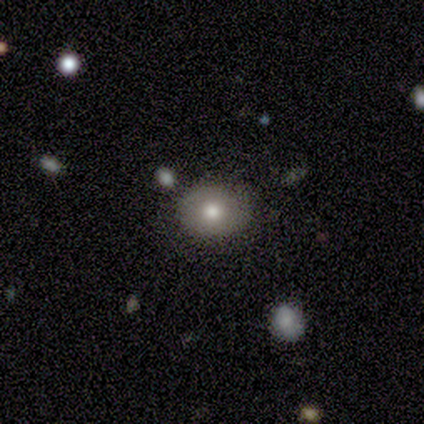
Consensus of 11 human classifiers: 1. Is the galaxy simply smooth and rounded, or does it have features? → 64% smooth, 36% featured or disk, 0% star or artifact.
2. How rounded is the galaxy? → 57% round, 43% in between, 0% cigar-shaped.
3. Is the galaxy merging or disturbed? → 82% none, 18% minor disturbance, 0% major disturbance, 0% merger.